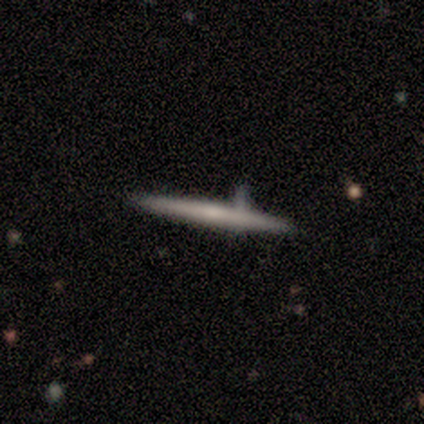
Smooth or featured?
  - featured or disk: 100% *
  - smooth: 0%
  - star or artifact: 0%
Edge-on disk?
  - yes: 100% *
  - no: 0%
Edge-on bulge?
  - none: 60% *
  - rounded: 40%
  - boxy: 0%
Merging?
  - none: 80% *
  - minor disturbance: 20%
  - major disturbance: 0%
  - merger: 0%